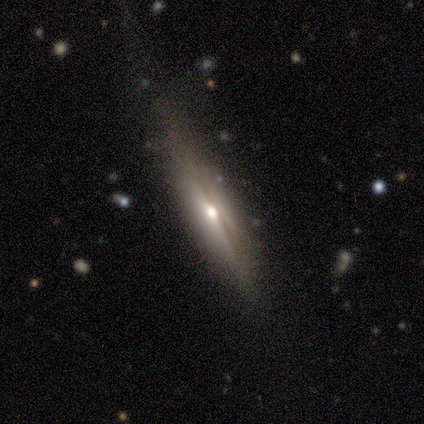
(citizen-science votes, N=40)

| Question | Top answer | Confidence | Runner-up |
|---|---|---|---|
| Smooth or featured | featured or disk | 62% | smooth (30%) |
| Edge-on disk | yes | 100% | — |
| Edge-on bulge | rounded | 96% | none (4%) |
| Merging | none | 65% | minor disturbance (24%) |